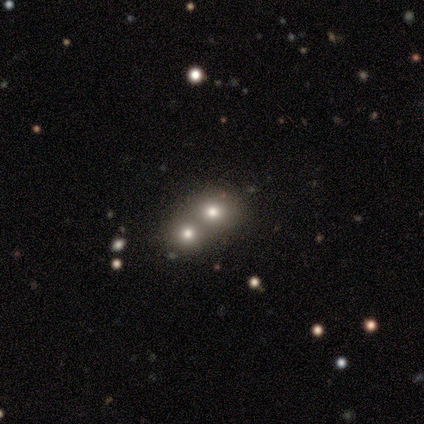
Smooth or featured? 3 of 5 (60%) said star or artifact.